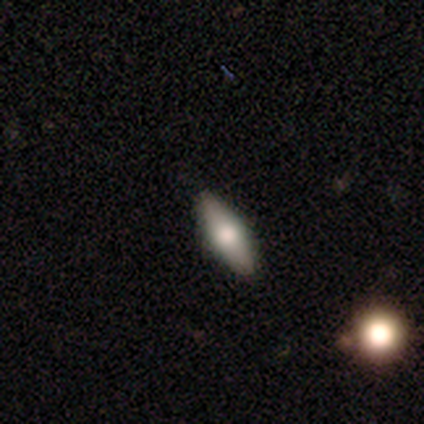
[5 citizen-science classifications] Overall: featured or disk (60%; smooth 40%). Edge-on disk: yes (67%; no 33%). Edge-on bulge: rounded (100%). Merging: none (100%).